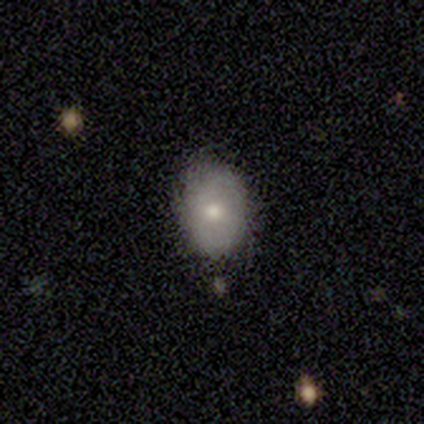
This appears to be a smooth galaxy with no disk features (72%) that is in between round and cigar-shaped (68%). Merging: none (76%).